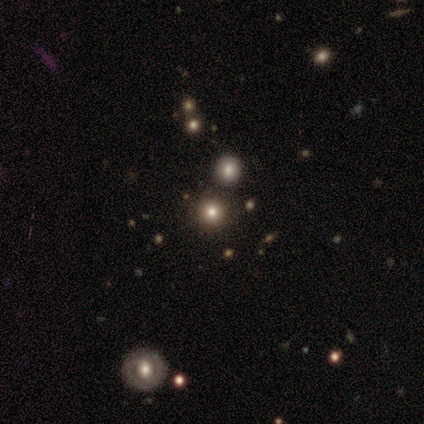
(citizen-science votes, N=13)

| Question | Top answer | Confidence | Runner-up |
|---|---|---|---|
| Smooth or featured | smooth | 38% | tied: star or artifact (38%) |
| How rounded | round | 100% | — |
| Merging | none | 62% | merger (38%) |